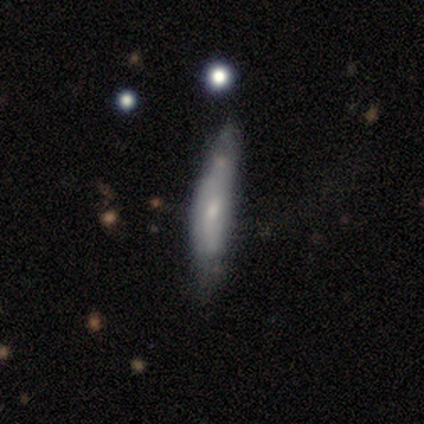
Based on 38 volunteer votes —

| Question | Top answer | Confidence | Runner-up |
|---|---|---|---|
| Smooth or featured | smooth | 55% | featured or disk (34%) |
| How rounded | cigar-shaped | 76% | in between (19%) |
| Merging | none | 41% | minor disturbance (38%) |